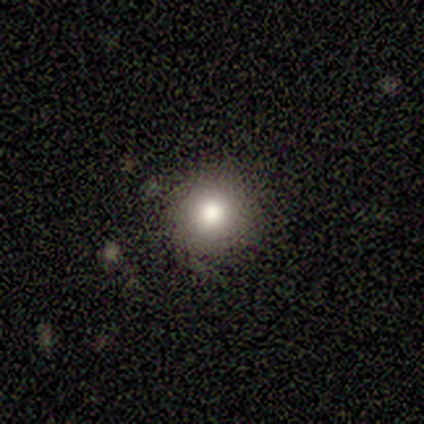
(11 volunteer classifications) Q: Smooth or featured?
A: smooth (73%); runner-up: featured or disk (18%)
Q: How rounded?
A: round (100%)
Q: Merging?
A: none (80%); runner-up: minor disturbance (10%)